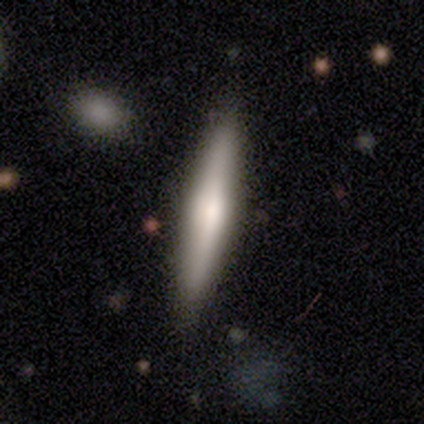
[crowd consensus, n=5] Q: Smooth or featured?
A: smooth (40%); tied with: featured or disk (40%)
Q: How rounded?
A: in between (50%); tied with: cigar-shaped (50%)
Q: Merging?
A: none (75%); runner-up: minor disturbance (25%)